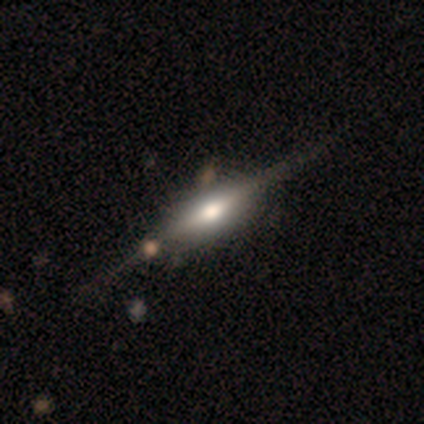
A featured or disk galaxy (100%) viewed edge-on (100%) with a rounded central bulge (80%).

Vote fractions:
- Smooth or featured? featured or disk: 100% / smooth: 0% / star or artifact: 0%
- Edge-on disk? yes: 100% / no: 0%
- Edge-on bulge? rounded: 80% / boxy: 20% / none: 0%
- Merging? none: 100% / minor disturbance: 0% / major disturbance: 0% / merger: 0%